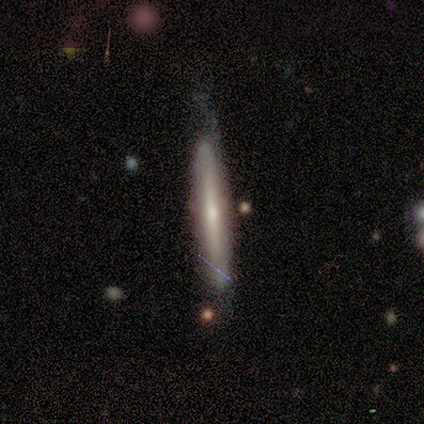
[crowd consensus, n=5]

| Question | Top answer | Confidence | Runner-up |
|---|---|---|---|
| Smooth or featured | smooth | 60% | featured or disk (20%) |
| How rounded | cigar-shaped | 100% | — |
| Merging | minor disturbance | 75% | none (25%) |